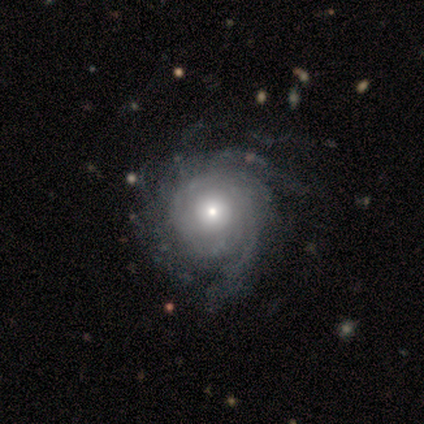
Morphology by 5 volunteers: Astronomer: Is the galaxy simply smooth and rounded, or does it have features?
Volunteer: featured or disk — 80%.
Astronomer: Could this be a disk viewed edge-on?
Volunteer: no — 100%.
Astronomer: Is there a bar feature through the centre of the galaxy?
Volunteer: no — 100%.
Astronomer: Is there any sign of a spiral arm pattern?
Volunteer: yes — 100%.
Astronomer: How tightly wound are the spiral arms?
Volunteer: loose — 50%.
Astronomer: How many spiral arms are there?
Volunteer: can't tell — 50%.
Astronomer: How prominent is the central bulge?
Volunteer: small — 50%.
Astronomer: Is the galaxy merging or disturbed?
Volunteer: none — 60% (runner-up: major disturbance, 40%).